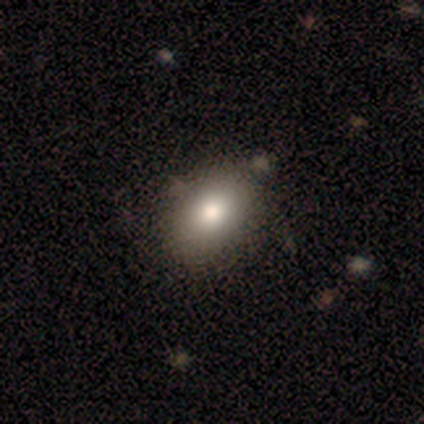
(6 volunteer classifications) smooth 83%, featured or disk 17%, star or artifact 0%. Down the decision tree: how rounded — in between (80%); merging — none (83%).